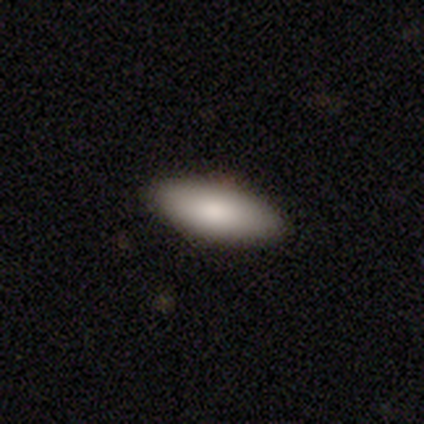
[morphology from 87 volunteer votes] smooth-or-featured: smooth: 92% | featured or disk: 5% | star or artifact: 3%
  how-rounded: in between: 72% | cigar-shaped: 26% | round: 1%
  merging: none: 83% | minor disturbance: 15% | major disturbance: 1% | merger: 0%